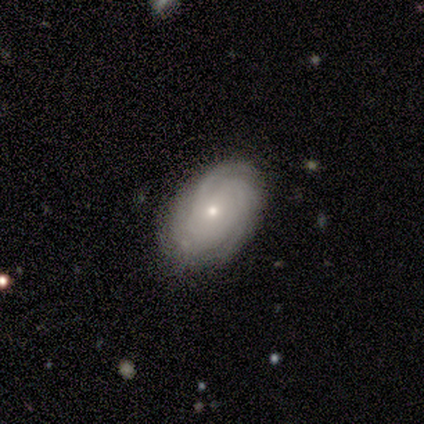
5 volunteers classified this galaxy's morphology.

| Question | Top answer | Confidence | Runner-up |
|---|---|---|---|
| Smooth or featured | featured or disk | 60% | smooth (20%) |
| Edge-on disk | no | 100% | — |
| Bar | no | 100% | — |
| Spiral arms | yes | 67% | no (33%) |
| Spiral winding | tight | 50% | tied: loose (50%) |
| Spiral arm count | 3 | 100% | — |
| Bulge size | small | 100% | — |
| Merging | none | 75% | minor disturbance (25%) |